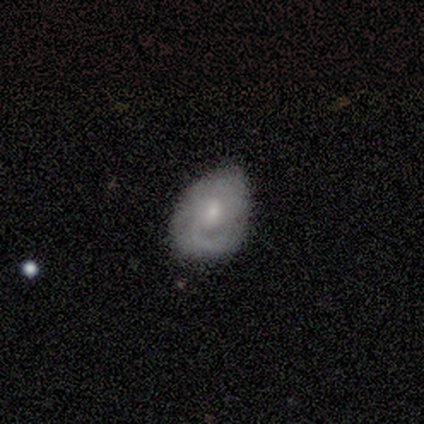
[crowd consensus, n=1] Smooth or featured: smooth — 100%
How rounded: in between — 100%
Merging: minor disturbance — 100%